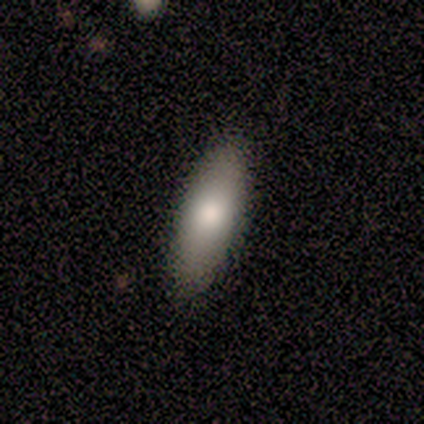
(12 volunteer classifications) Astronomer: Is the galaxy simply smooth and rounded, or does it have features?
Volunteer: smooth — 83%.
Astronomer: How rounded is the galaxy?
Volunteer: in between — 60% (runner-up: cigar-shaped, 40%).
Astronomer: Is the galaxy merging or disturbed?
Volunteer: none — 92%.